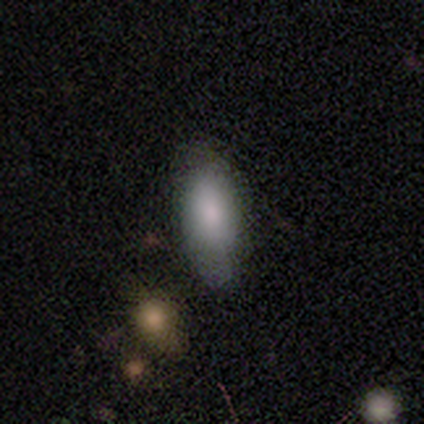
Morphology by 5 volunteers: Q: Smooth or featured?
A: smooth (80%); runner-up: star or artifact (20%)
Q: How rounded?
A: in between (100%)
Q: Merging?
A: none (75%); runner-up: merger (25%)